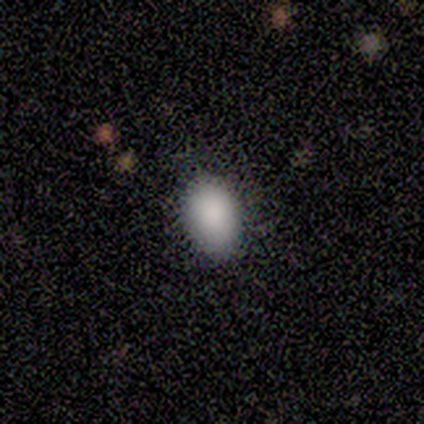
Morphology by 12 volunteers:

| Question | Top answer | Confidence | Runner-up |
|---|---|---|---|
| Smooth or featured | smooth | 92% | star or artifact (8%) |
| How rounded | in between | 100% | — |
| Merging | none | 64% | minor disturbance (36%) |